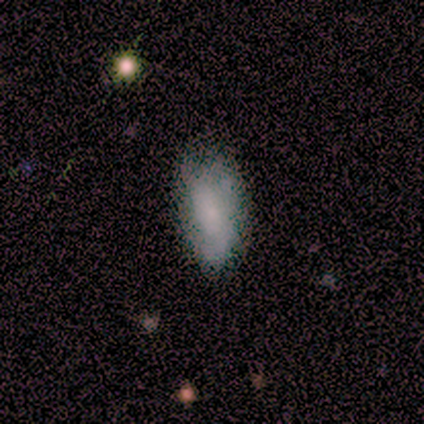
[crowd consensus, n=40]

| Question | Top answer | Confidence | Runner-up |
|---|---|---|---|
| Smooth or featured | smooth | 55% | featured or disk (38%) |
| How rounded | in between | 91% | cigar-shaped (9%) |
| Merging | none | 59% | minor disturbance (27%) |